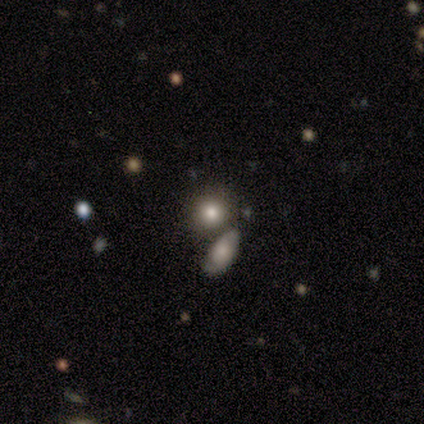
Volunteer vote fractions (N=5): Q: Smooth or featured?
A: smooth (80%); runner-up: star or artifact (20%)
Q: How rounded?
A: round (100%)
Q: Merging?
A: none (100%)